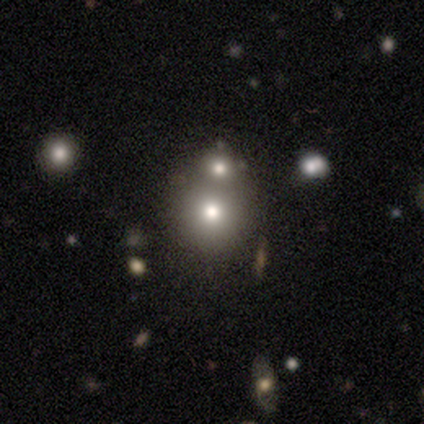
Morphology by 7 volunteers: Smooth or featured? 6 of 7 (86%) said smooth. How rounded? 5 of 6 (83%) said round. Merging? 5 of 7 (71%) said merger.